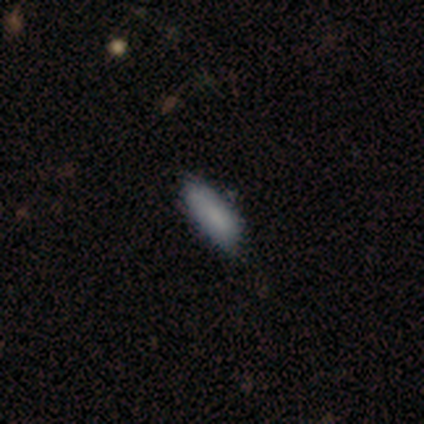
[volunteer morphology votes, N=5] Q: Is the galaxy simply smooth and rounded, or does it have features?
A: smooth — 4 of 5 (80%).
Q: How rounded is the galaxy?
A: in between — 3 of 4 (75%).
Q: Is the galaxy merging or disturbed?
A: minor disturbance — 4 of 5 (80%).